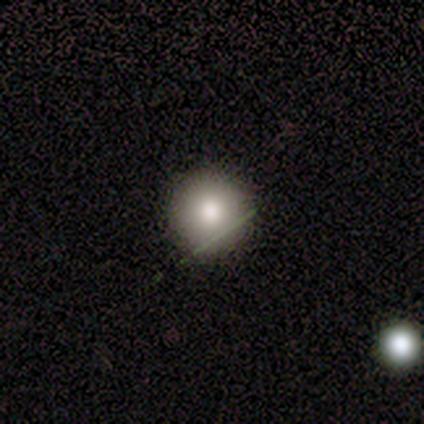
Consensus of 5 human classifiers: This is clearly a smooth galaxy (100%). How rounded: clearly round (100%). Merging: clearly none (100%).